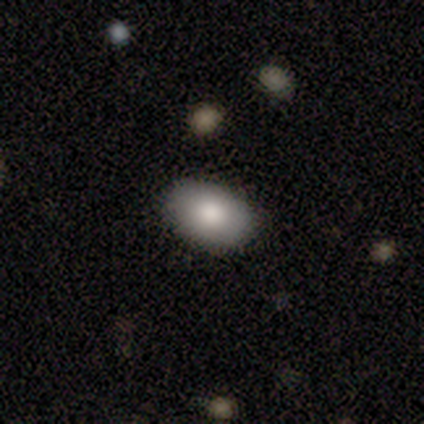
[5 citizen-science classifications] smooth 80%, featured or disk 20%, star or artifact 0%. Down the decision tree: how rounded — in between (100%); merging — none (100%).